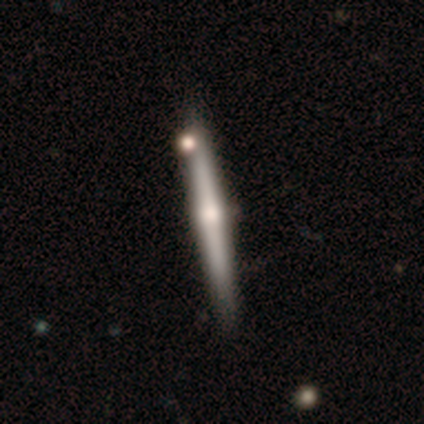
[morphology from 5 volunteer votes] Q: Smooth or featured?
A: featured or disk (100%)
Q: Edge-on disk?
A: yes (100%)
Q: Edge-on bulge?
A: rounded (100%)
Q: Merging?
A: none (80%); runner-up: minor disturbance (20%)